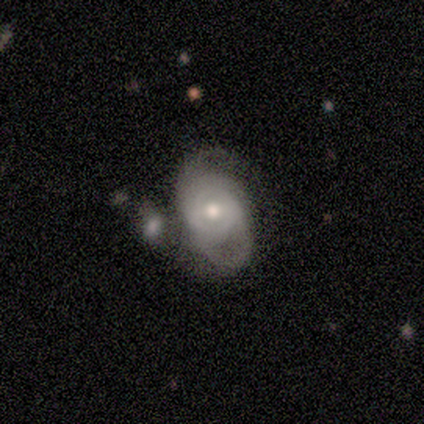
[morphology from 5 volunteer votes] This is clearly a featured or disk galaxy (80%). It is clearly not viewed edge-on (100%). Bar: possibly weak (50%, tied with no). Spiral arm pattern: likely yes (75%). Spiral arm count: clearly can't tell (100%). Spiral winding: likely tight (67%). Central bulge: likely moderate (75%). Merging: likely merger (60%).